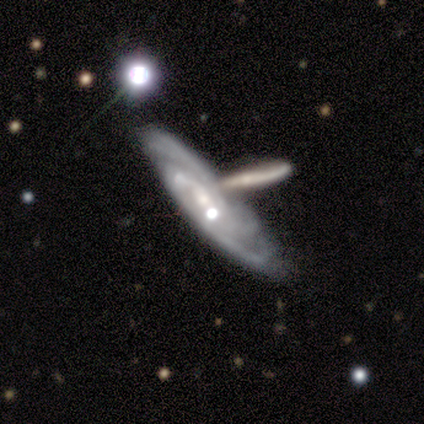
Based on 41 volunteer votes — Volunteers were most divided on "merging": none: 41%, merger: 35%, minor disturbance: 14%, major disturbance: 11%. Remaining: spiral arms — yes (100%); edge-on disk — no (88%); smooth or featured — featured or disk (83%); spiral winding — tight (67%); bar — no (63%); bulge size — small (57%); spiral arm count — can't tell (43%).